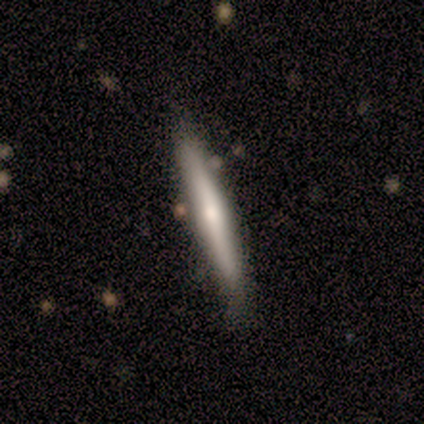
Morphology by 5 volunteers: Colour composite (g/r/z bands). It shows a featured or disk galaxy (60%) viewed edge-on (67%) with a rounded central bulge (100%). Merging: none (80%).